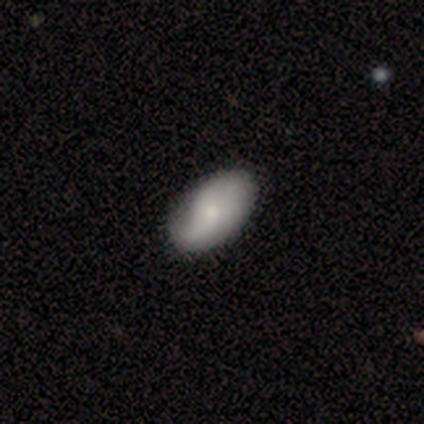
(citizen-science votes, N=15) Overall: smooth (60%; featured or disk 40%). How rounded: in between (89%). Merging: none (80%).